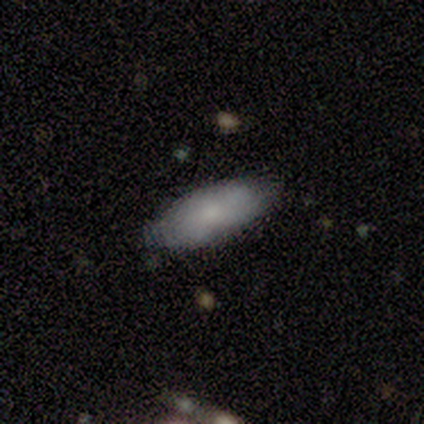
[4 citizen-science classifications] Volunteers were most divided on "merging": none: 75%, minor disturbance: 25%, major disturbance: 0%, merger: 0%. More confident: smooth or featured — smooth (100%); how rounded — in between (100%).